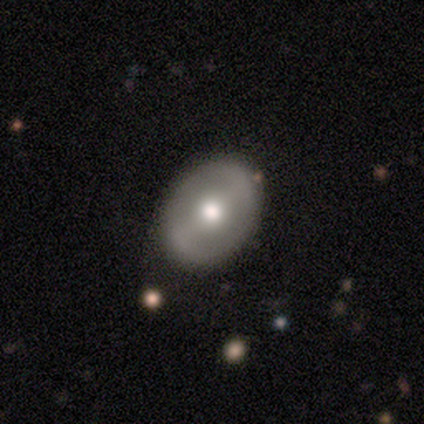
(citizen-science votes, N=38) Smooth or featured? featured or disk (68%)
Edge-on disk? no (96%)
Bar? strong (36%, tied with weak)
Spiral arms? no (52%)
Bulge size? moderate (80%)
Merging? none (49%)